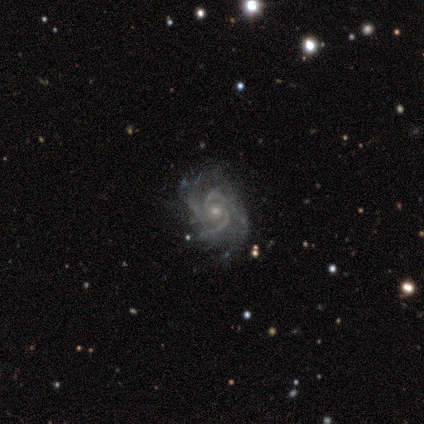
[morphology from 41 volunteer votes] This is clearly a featured or disk galaxy (93%). It is clearly not viewed edge-on (100%). Bar: clearly no (84%). Spiral arm pattern: clearly yes (100%). Spiral arm count: likely 3 (63%). Spiral winding: possibly medium (53%). Central bulge: likely small (76%). Merging: likely none (75%).